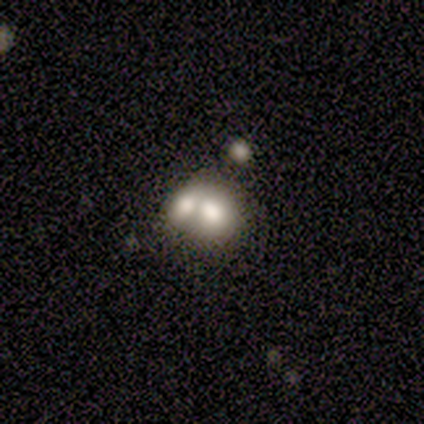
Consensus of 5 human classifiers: A smooth galaxy with no disk features (60%) that is round (67%).

Vote fractions:
- Smooth or featured? smooth: 60% / featured or disk: 20% / star or artifact: 20%
- How rounded? round: 67% / in between: 33% / cigar-shaped: 0%
- Merging? merger: 50% / minor disturbance: 25% / major disturbance: 25% / none: 0%